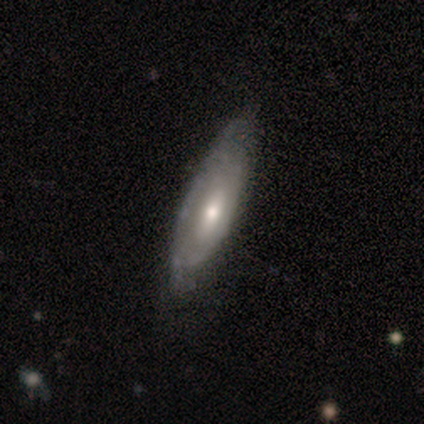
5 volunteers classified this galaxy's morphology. Smooth or featured? 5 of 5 (100%) said featured or disk. Edge-on disk? 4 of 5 (80%) said no. Bar? 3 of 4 (75%) said no. Spiral arms? 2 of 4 (50%, tied with no) said yes. Spiral winding? 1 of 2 (50%, tied with loose) said tight. Spiral arm count? 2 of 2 (100%) said can't tell. Bulge size? 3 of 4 (75%) said small. Merging? 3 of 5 (60%) said minor disturbance.